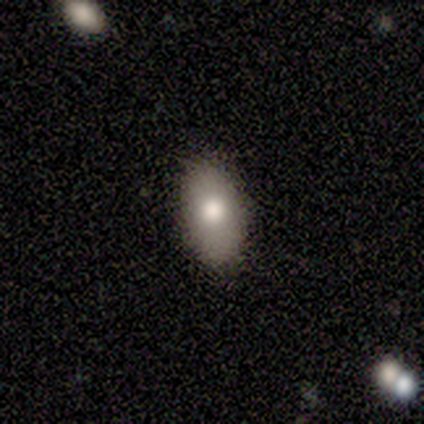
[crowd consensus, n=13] Smooth or featured?
  - smooth: 69% *
  - featured or disk: 23%
  - star or artifact: 8%
How rounded?
  - in between: 89% *
  - round: 11%
  - cigar-shaped: 0%
Merging?
  - none: 92% *
  - minor disturbance: 8%
  - major disturbance: 0%
  - merger: 0%